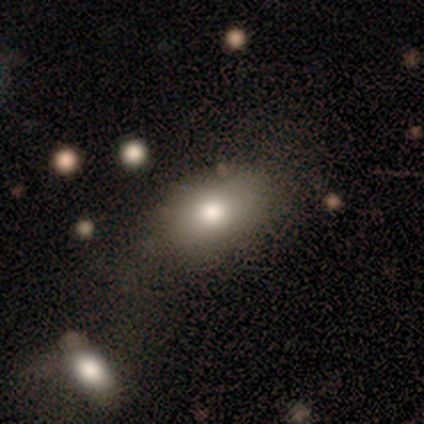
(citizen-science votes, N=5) A smooth galaxy with no disk features (80%) that is in between round and cigar-shaped (75%).

Vote fractions:
- Smooth or featured? smooth: 80% / featured or disk: 20% / star or artifact: 0%
- How rounded? in between: 75% / round: 25% / cigar-shaped: 0%
- Merging? none: 60% / minor disturbance: 20% / merger: 20% / major disturbance: 0%